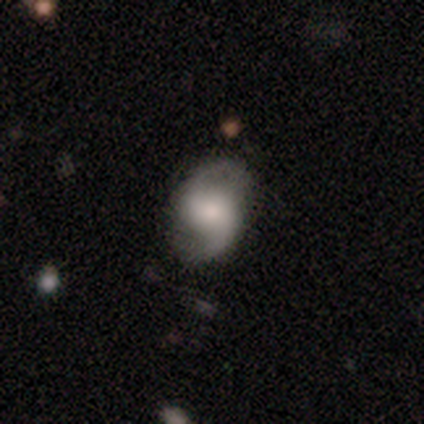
Morphology: type=featured or disk (71%); edge-on=no (100%); bar=no (60%); spiral arms=yes (100%); winding=medium (40%, tied with loose); arm count=2 (80%); bulge=moderate (40%, tied with small); merging=none (86%).